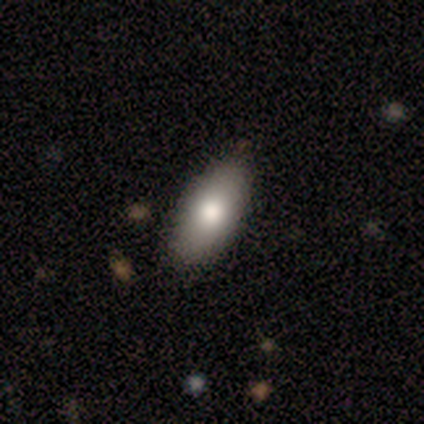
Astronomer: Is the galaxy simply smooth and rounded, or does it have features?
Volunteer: smooth — 62%.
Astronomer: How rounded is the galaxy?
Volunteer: in between — 100%.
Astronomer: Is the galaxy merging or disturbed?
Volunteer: none — 100%.